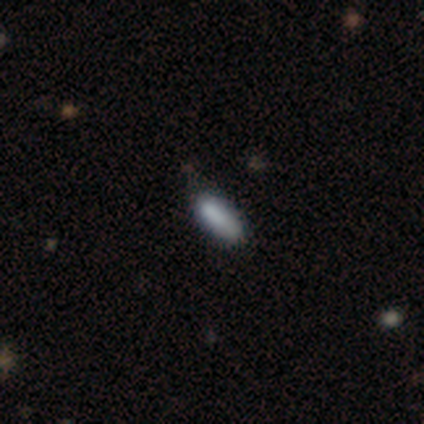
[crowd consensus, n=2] Overall: smooth (50%, tied with featured or disk). How rounded: in between (100%). Merging: none (100%).